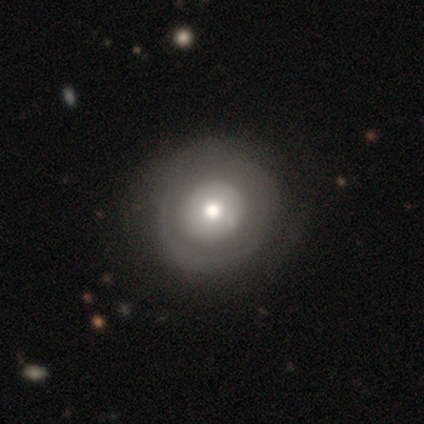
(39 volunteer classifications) Morphology: type=featured or disk (56%); edge-on=no (100%); bar=no (95%); spiral arms=no (82%); bulge=moderate (82%); merging=none (49%).